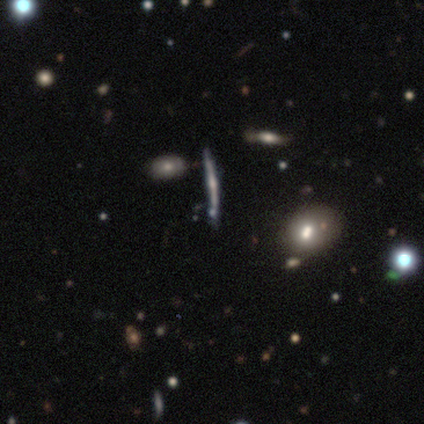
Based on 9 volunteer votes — Overall: featured or disk (78%). Edge-on disk: yes (100%). Edge-on bulge: rounded (86%). Merging: none (62%; minor disturbance 25%).